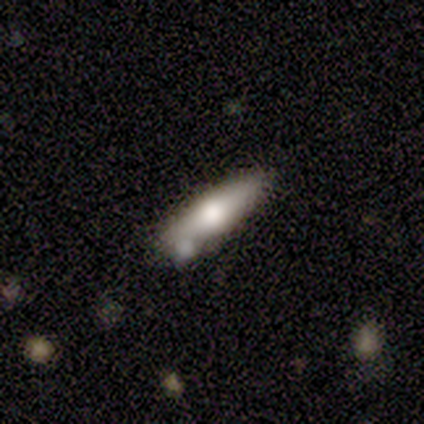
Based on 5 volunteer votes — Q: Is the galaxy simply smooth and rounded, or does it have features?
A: featured or disk — 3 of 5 (60%).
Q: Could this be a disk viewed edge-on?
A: yes — 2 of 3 (67%).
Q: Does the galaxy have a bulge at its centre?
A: rounded — 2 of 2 (100%).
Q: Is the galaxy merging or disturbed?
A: none — 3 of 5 (60%).